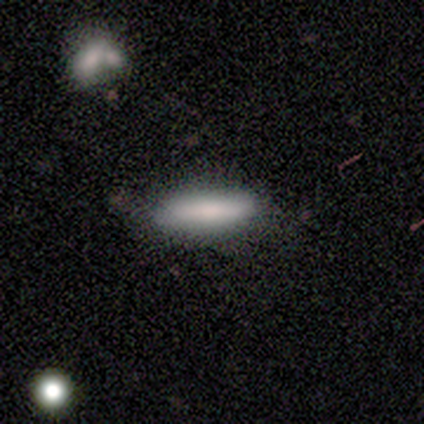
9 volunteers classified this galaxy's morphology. Volunteers were most divided on "merging" (2-way tie): none: 44%, minor disturbance: 44%, major disturbance: 11%, merger: 0%. More confident: smooth or featured — smooth (89%); how rounded — in between (50%).